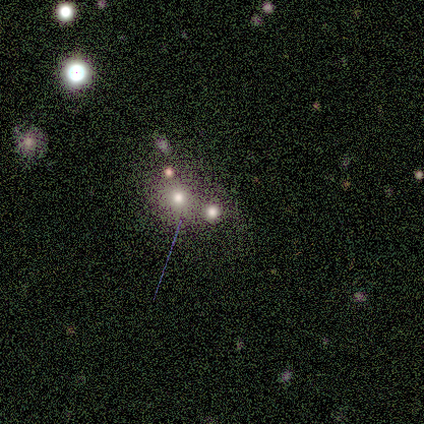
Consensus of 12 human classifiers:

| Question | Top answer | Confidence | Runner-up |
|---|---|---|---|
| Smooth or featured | smooth | 42% | star or artifact (33%) |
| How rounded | round | 100% | — |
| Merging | none | 62% | merger (38%) |